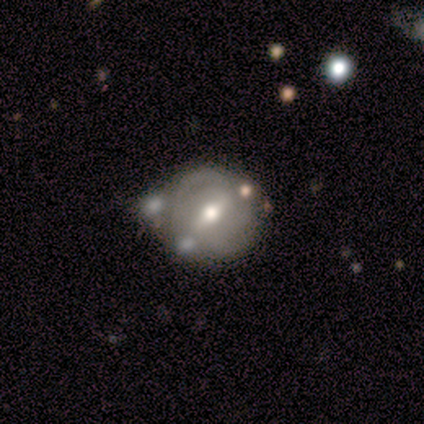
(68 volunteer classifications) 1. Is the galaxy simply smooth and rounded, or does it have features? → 79% featured or disk, 15% smooth, 6% star or artifact.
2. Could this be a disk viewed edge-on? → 98% no, 2% yes.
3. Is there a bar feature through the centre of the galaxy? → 45% strong, 40% weak, 15% no.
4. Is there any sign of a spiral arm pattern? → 74% yes, 26% no.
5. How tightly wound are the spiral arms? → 72% tight, 26% medium, 3% loose.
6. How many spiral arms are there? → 51% 2, 23% can't tell, 13% 3, 10% 4, 3% 1, 0% more than 4.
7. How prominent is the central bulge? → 83% moderate, 13% small, 4% large, 0% dominant, 0% none.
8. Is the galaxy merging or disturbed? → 59% none, 19% merger, 17% minor disturbance, 5% major disturbance.